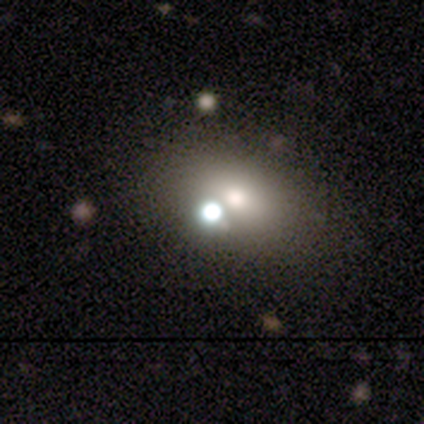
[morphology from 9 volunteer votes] Volunteers were most divided on "smooth or featured": star or artifact: 67%, featured or disk: 22%, smooth: 11%.